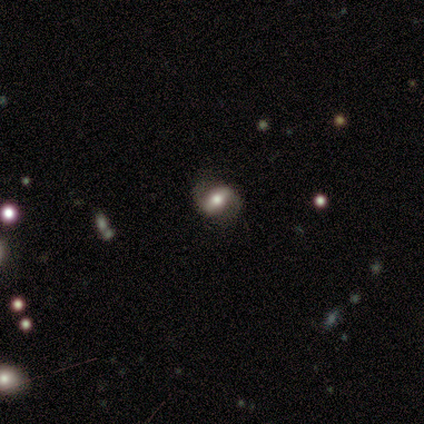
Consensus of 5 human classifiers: Overall: featured or disk (60%; smooth 40%). Edge-on disk: no (100%). Bar: strong (33%, tied with weak and no). Spiral arms: yes (100%). Spiral arm count: 2 (100%). Spiral winding: medium (67%; loose 33%). Bulge size: large (33%, tied with moderate and small). Merging: none (60%; minor disturbance 20%).